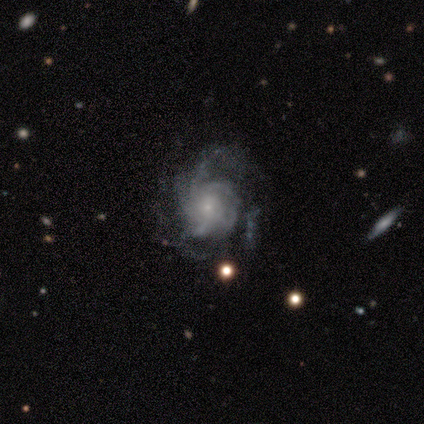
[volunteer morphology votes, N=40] type=featured or disk (88%); edge-on=no (100%); bar=no (89%); spiral arms=yes (91%); winding=medium (47%); arm count=can't tell (38%); bulge=small (77%); merging=none (38%).